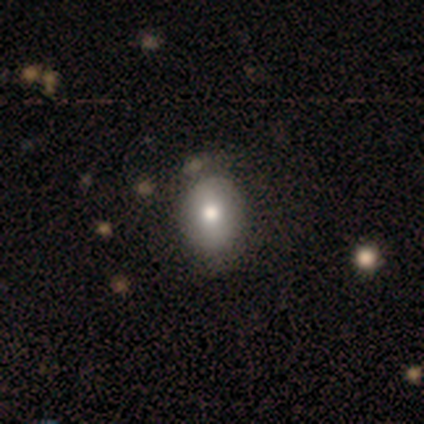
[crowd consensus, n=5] smooth_or_featured: smooth (p=0.80) [alt: featured or disk p=0.20]
how_rounded: round (p=0.75) [alt: in between p=0.25]
merging: none (p=1.00)